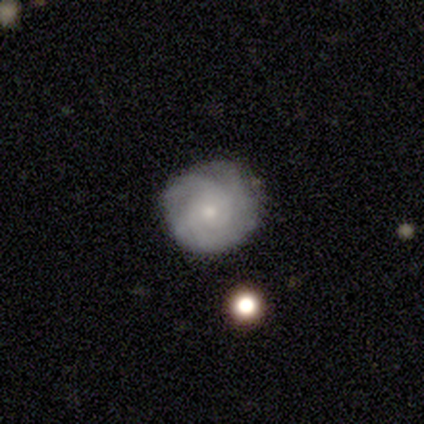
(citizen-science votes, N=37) Volunteers were most divided on "spiral arm count": can't tell: 38%, 3: 21%, 2: 17%, more than 4: 17%, 4: 7%, 1: 0%. More confident: edge-on disk — no (100%); spiral arms — yes (100%); merging — none (81%); smooth or featured — featured or disk (78%); bar — no (76%); spiral winding — tight (72%); bulge size — small (72%).